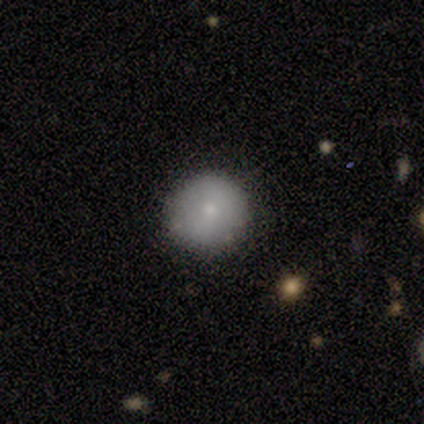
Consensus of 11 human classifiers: This is clearly a smooth galaxy (91%). How rounded: clearly round (90%). Merging: clearly none (100%).